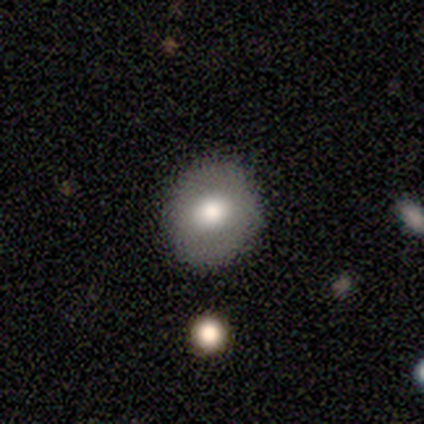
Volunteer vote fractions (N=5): smooth_or_featured: smooth (p=0.60) [alt: featured or disk p=0.40]
how_rounded: round (p=1.00)
merging: none (p=1.00)